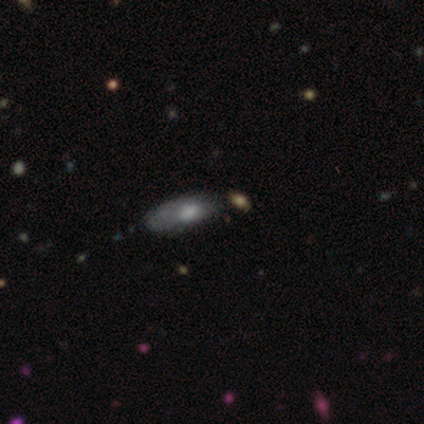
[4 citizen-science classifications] smooth_or_featured: smooth (p=0.75) [alt: featured or disk p=0.25]
how_rounded: in between (p=0.67) [alt: cigar-shaped p=0.33]
merging: none (p=0.75) [alt: major disturbance p=0.25]